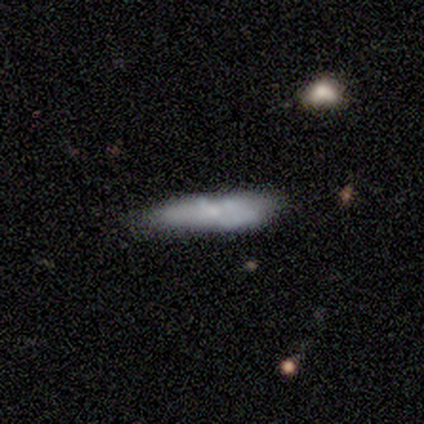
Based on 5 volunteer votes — A featured or disk galaxy (80%) with no bar (100%), no spiral arms (100%) and a moderate central bulge (67%).

Vote fractions:
- Smooth or featured? featured or disk: 80% / smooth: 20% / star or artifact: 0%
- Edge-on disk? no: 75% / yes: 25%
- Bar? no: 100% / strong: 0% / weak: 0%
- Spiral arms? no: 100% / yes: 0%
- Bulge size? moderate: 67% / none: 33% / dominant: 0% / large: 0% / small: 0%
- Merging? none: 40% (tied) / major disturbance: 40% (tied) / minor disturbance: 20% / merger: 0%